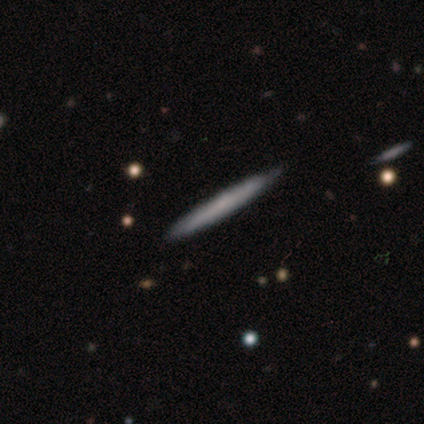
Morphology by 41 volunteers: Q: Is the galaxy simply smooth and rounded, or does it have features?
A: featured or disk — 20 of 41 (49%).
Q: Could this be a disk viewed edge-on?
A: yes — 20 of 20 (100%).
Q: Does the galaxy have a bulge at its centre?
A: none — 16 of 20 (80%).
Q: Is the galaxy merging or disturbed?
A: none — 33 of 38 (87%).